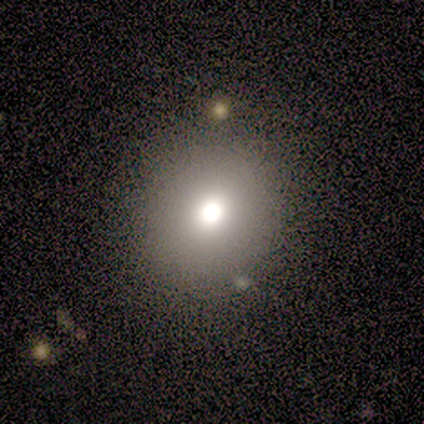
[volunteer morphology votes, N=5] Q: Smooth or featured?
A: smooth (80%); runner-up: featured or disk (20%)
Q: How rounded?
A: round (100%)
Q: Merging?
A: none (100%)